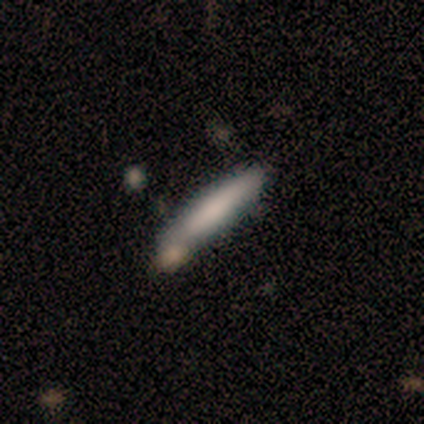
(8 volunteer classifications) This is possibly a smooth galaxy (50%). How rounded: clearly cigar-shaped (100%). Merging: clearly none (86%).